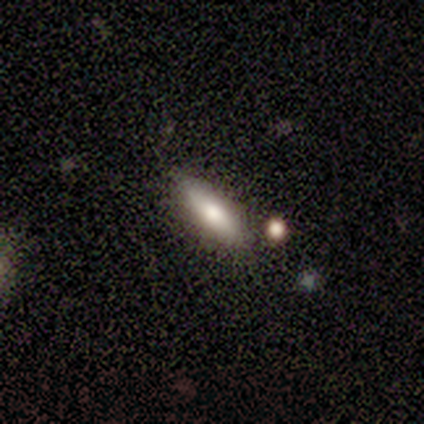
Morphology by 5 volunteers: Smooth or featured?
  - smooth: 60% *
  - featured or disk: 40%
  - star or artifact: 0%
How rounded?
  - cigar-shaped: 67% *
  - in between: 33%
  - round: 0%
Merging?
  - none: 100% *
  - minor disturbance: 0%
  - major disturbance: 0%
  - merger: 0%